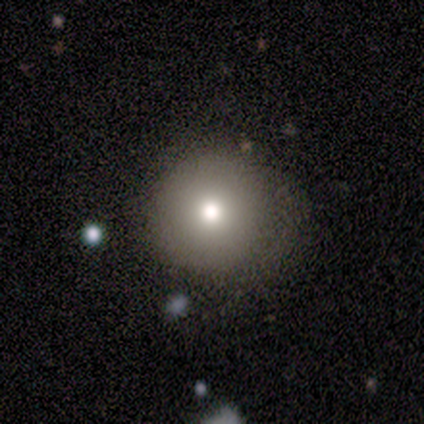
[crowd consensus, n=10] Smooth or featured? 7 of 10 (70%) said smooth. How rounded? 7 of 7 (100%) said round. Merging? 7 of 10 (70%) said none.